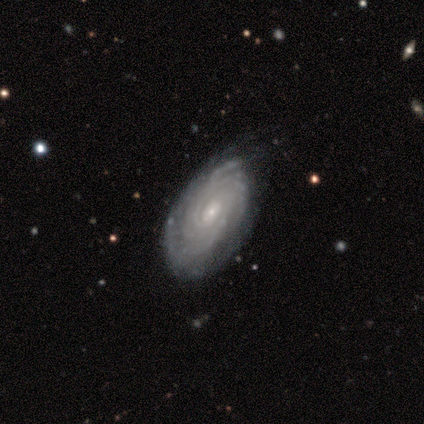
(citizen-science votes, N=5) smooth_or_featured: featured or disk (p=0.80) [alt: smooth p=0.20]
disk_edge_on: no (p=1.00)
bar: weak (p=0.50) [tied with: no p=0.50]
has_spiral_arms: yes (p=1.00)
spiral_winding: tight (p=1.00)
spiral_arm_count: can't tell (p=1.00)
bulge_size: small (p=1.00)
merging: none (p=0.60) [alt: minor disturbance p=0.40]